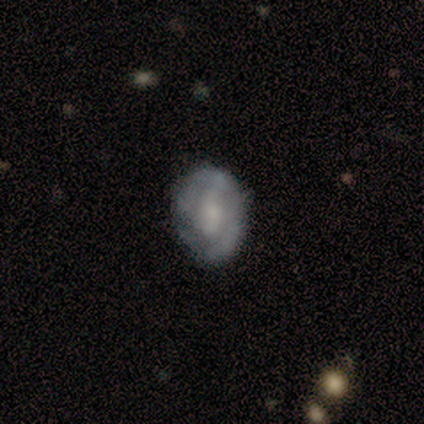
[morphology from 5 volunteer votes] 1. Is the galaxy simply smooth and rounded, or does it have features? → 60% featured or disk, 20% smooth, 20% star or artifact.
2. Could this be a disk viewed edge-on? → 100% no, 0% yes.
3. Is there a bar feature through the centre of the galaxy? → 100% no, 0% strong, 0% weak.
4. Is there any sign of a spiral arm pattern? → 67% no, 33% yes.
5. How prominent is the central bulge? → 33% moderate (tied), 33% small (tied), 33% none (tied), 0% dominant, 0% large.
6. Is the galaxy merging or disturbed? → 50% none (tied), 50% minor disturbance (tied), 0% major disturbance, 0% merger.